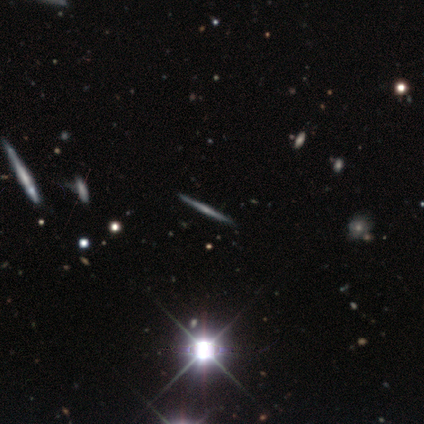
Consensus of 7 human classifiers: This is marginally a featured or disk galaxy (43%, tied with star or artifact). It is clearly viewed edge-on (100%). Edge-on bulge: likely none (67%). Merging: clearly none (100%).